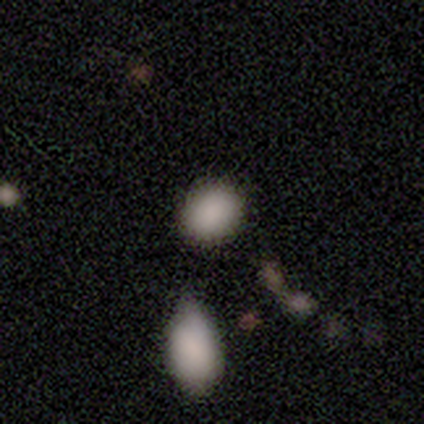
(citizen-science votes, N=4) Q: Smooth or featured?
A: smooth (100%)
Q: How rounded?
A: in between (75%); runner-up: round (25%)
Q: Merging?
A: none (100%)